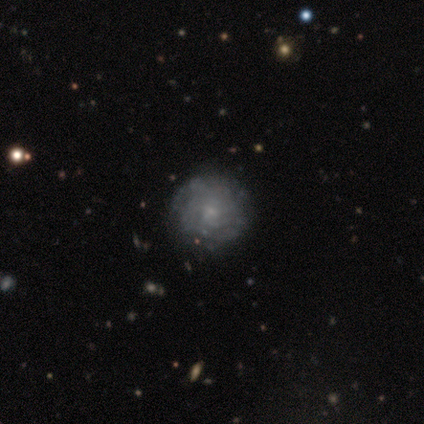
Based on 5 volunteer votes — Q: Smooth or featured?
A: featured or disk (100%)
Q: Edge-on disk?
A: no (100%)
Q: Bar?
A: no (80%); runner-up: weak (20%)
Q: Spiral arms?
A: yes (80%); runner-up: no (20%)
Q: Spiral winding?
A: tight (75%); runner-up: loose (25%)
Q: Spiral arm count?
A: can't tell (75%); runner-up: more than 4 (25%)
Q: Bulge size?
A: small (80%); runner-up: moderate (20%)
Q: Merging?
A: none (100%)